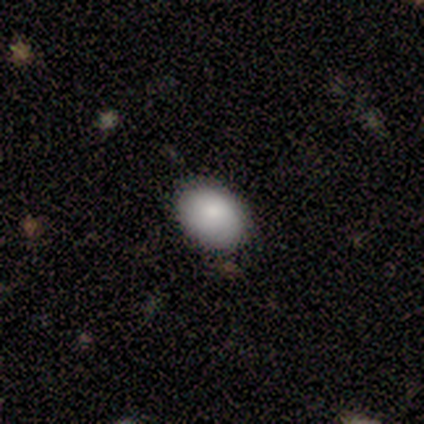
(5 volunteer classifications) Smooth or featured?
  - smooth: 100% *
  - featured or disk: 0%
  - star or artifact: 0%
How rounded?
  - in between: 100% *
  - round: 0%
  - cigar-shaped: 0%
Merging?
  - none: 80% *
  - minor disturbance: 20%
  - major disturbance: 0%
  - merger: 0%